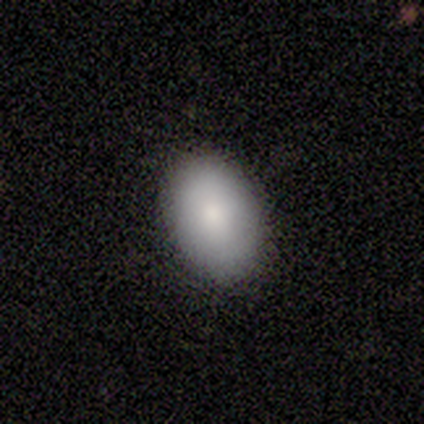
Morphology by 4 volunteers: smooth 100%, featured or disk 0%, star or artifact 0%. Down the decision tree: how rounded — in between (100%); merging — none (100%).